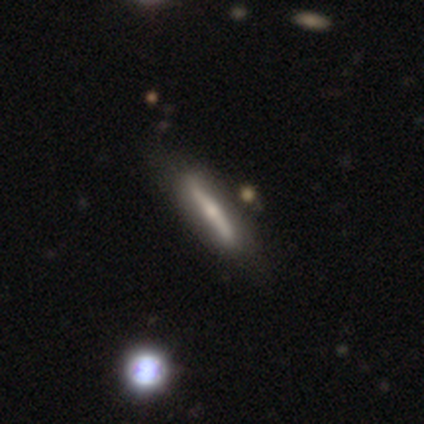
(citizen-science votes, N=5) Overall: smooth (80%). How rounded: cigar-shaped (100%). Merging: none (100%).